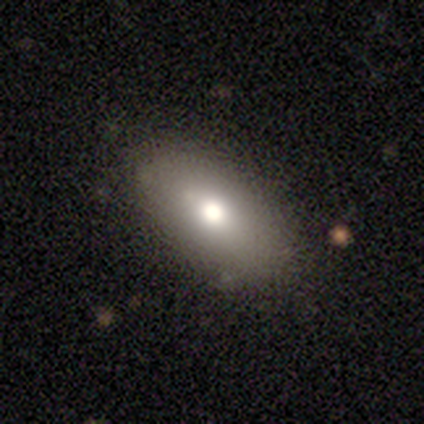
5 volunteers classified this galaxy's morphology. Q: Smooth or featured?
A: smooth (80%); runner-up: featured or disk (20%)
Q: How rounded?
A: in between (100%)
Q: Merging?
A: none (80%); runner-up: minor disturbance (20%)